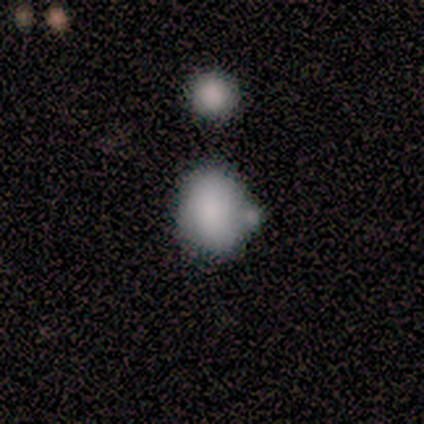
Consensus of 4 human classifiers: Smooth or featured?
  - smooth: 100% *
  - featured or disk: 0%
  - star or artifact: 0%
How rounded?
  - round: 75% *
  - in between: 25%
  - cigar-shaped: 0%
Merging?
  - minor disturbance: 50% *
  - none: 25%
  - merger: 25%
  - major disturbance: 0%